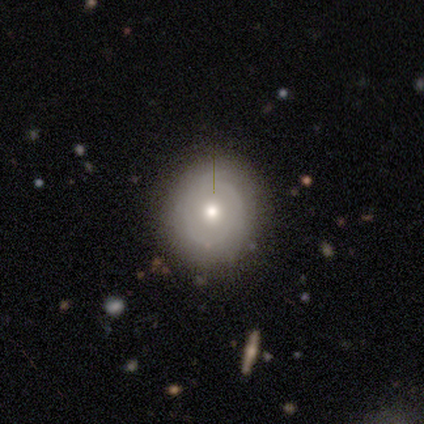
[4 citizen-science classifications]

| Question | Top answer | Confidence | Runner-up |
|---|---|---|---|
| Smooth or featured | smooth | 50% | tied: featured or disk (50%) |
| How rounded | round | 100% | — |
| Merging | none | 100% | — |